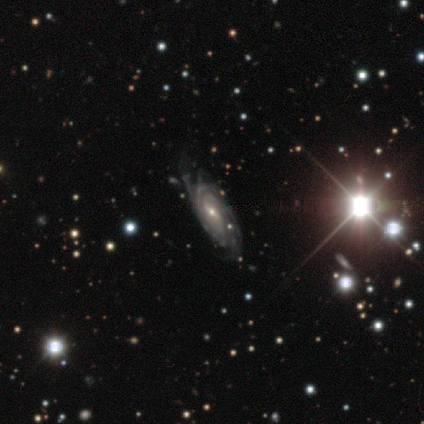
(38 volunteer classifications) Overall: featured or disk (89%). Edge-on disk: no (94%). Bar: weak (53%; no 25%). Spiral arms: yes (100%). Spiral arm count: can't tell (56%; 4 19%). Spiral winding: tight (75%). Bulge size: small (53%; moderate 38%). Merging: none (54%; minor disturbance 17%).